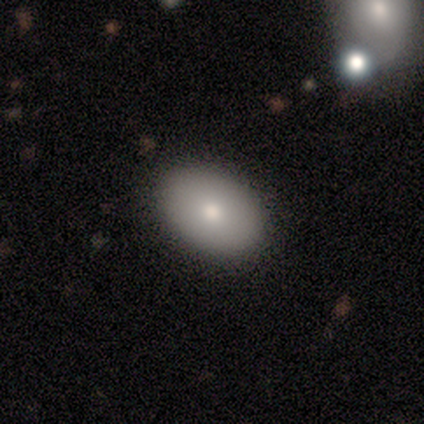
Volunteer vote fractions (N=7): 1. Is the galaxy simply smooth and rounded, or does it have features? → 100% smooth, 0% featured or disk, 0% star or artifact.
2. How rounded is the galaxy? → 86% in between, 14% round, 0% cigar-shaped.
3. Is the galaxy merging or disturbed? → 100% none, 0% minor disturbance, 0% major disturbance, 0% merger.